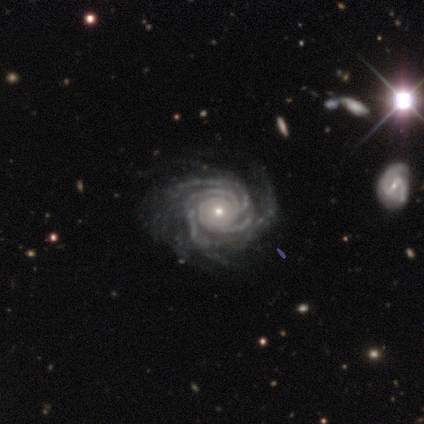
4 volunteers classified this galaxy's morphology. This is clearly a featured or disk galaxy (100%). It is clearly not viewed edge-on (100%). Bar: likely no (75%). Spiral arm pattern: clearly yes (100%). Spiral arm count: possibly more than 4 (50%). Spiral winding: clearly tight (100%). Central bulge: clearly small (100%). Merging: clearly none (100%).